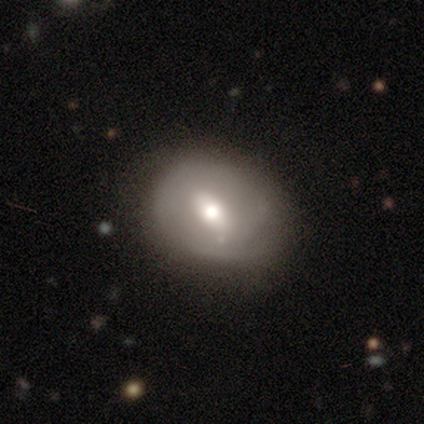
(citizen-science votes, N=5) Overall: featured or disk (80%). Edge-on disk: no (75%). Bar: no (67%; weak 33%). Spiral arms: no (100%). Bulge size: moderate (100%). Merging: none (60%; minor disturbance 40%).